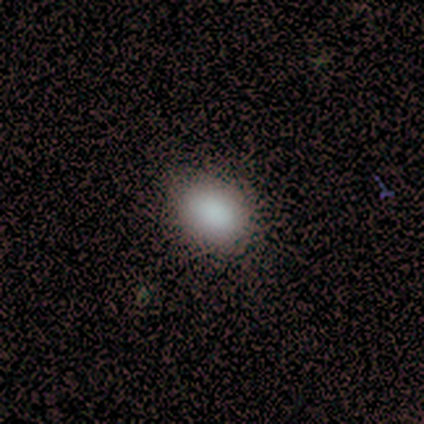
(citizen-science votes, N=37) Volunteers were most divided on "how rounded": in between: 69%, round: 31%, cigar-shaped: 0%. More confident: smooth or featured — smooth (95%); merging — none (75%).